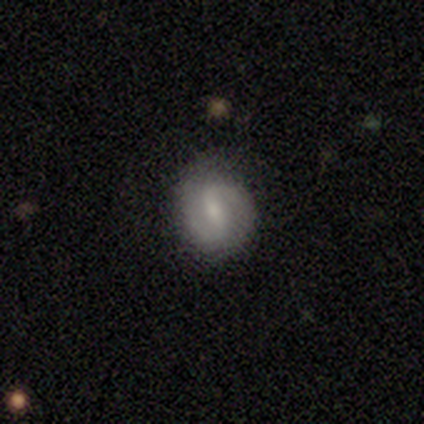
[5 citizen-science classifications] Overall: featured or disk (80%). Edge-on disk: no (100%). Bar: weak (50%; strong 25%). Spiral arms: yes (100%). Spiral arm count: 2 (100%). Spiral winding: medium (50%, tied with loose). Bulge size: moderate (50%; small 25%). Merging: none (75%).